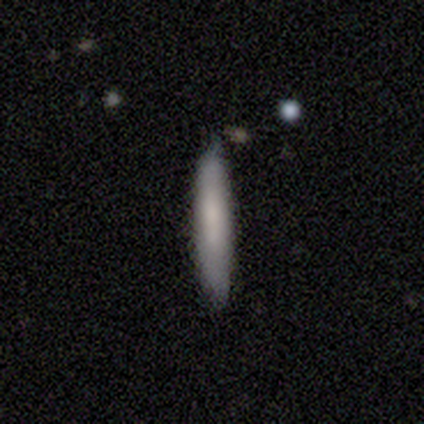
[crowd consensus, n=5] Volunteers were most divided on "smooth or featured": smooth: 80%, featured or disk: 20%, star or artifact: 0%. More confident: how rounded — cigar-shaped (100%); merging — none (80%).